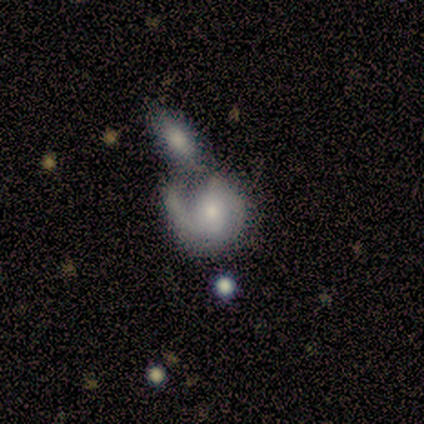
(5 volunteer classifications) Overall: featured or disk (80%). Edge-on disk: no (100%). Bar: weak (75%). Spiral arms: yes (100%). Spiral arm count: 2 (75%). Spiral winding: medium (50%; tight 25%). Bulge size: small (75%). Merging: merger (80%).